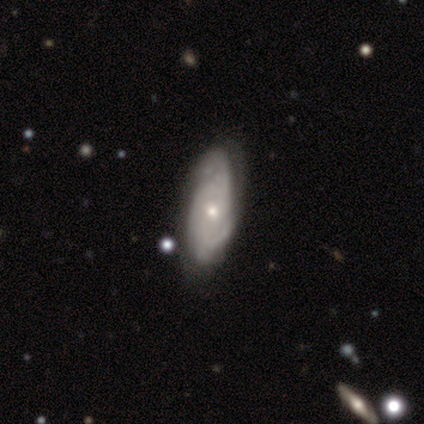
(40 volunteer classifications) Overall: featured or disk (82%). Edge-on disk: no (97%). Bar: no (78%). Spiral arms: yes (88%). Spiral arm count: can't tell (54%; 3 21%). Spiral winding: tight (54%; medium 39%). Bulge size: small (59%; moderate 31%). Merging: none (72%).